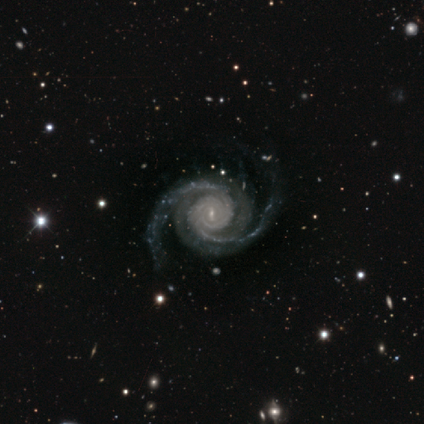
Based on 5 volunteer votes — Overall: featured or disk (100%). Edge-on disk: no (100%). Bar: no (60%; weak 40%). Spiral arms: yes (100%). Spiral arm count: 2 (100%). Spiral winding: tight (80%). Bulge size: small (80%). Merging: none (60%; minor disturbance 40%).